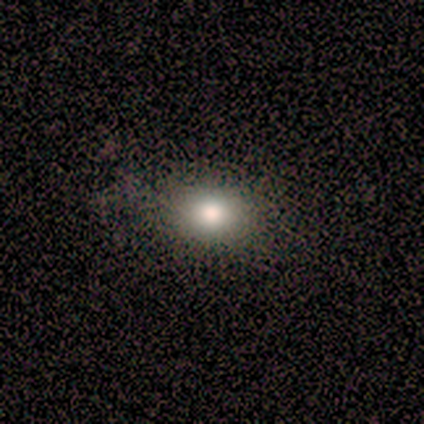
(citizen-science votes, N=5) A smooth galaxy with no disk features (100%) that is in between round and cigar-shaped (60%).

Vote fractions:
- Smooth or featured? smooth: 100% / featured or disk: 0% / star or artifact: 0%
- How rounded? in between: 60% / round: 40% / cigar-shaped: 0%
- Merging? none: 80% / major disturbance: 20% / minor disturbance: 0% / merger: 0%